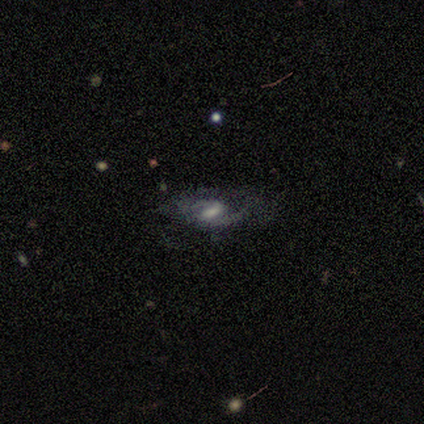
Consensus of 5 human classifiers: Smooth or featured: featured or disk — 80% (star or artifact — 20%)
Edge-on disk: no — 100%
Bar: strong — 75% (weak — 25%)
Spiral arms: yes — 100%
Spiral winding: medium — 75% (loose — 25%)
Spiral arm count: 1 — 50% (tied with 2 — 50%)
Bulge size: moderate — 50% (small — 25%)
Merging: minor disturbance — 50% (none — 25%)